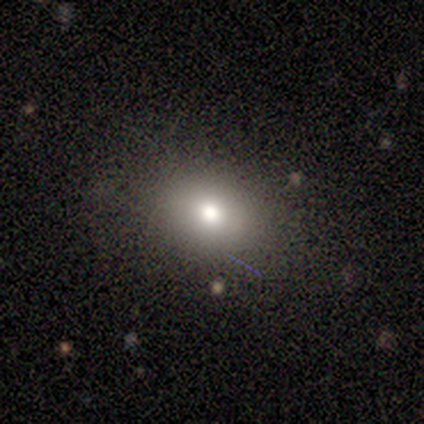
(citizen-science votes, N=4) A smooth galaxy with no disk features (50%, tied with star or artifact) that is in between round and cigar-shaped (100%). Merging: none (100%).